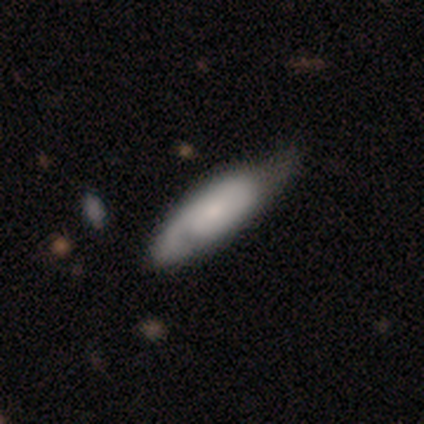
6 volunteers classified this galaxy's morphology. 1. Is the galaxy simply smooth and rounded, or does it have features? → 83% smooth, 17% featured or disk, 0% star or artifact.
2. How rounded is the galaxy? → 60% in between, 40% cigar-shaped, 0% round.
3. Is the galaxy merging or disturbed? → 50% none, 33% minor disturbance, 17% major disturbance, 0% merger.